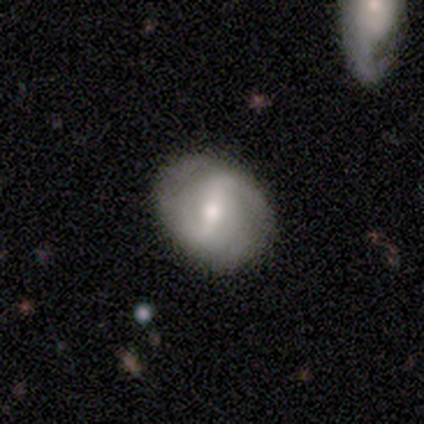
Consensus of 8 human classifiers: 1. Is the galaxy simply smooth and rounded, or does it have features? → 88% featured or disk, 12% smooth, 0% star or artifact.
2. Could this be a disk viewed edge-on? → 100% no, 0% yes.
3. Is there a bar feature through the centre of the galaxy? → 57% strong, 43% weak, 0% no.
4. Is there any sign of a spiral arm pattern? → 57% yes, 43% no.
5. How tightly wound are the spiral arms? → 75% medium, 25% loose, 0% tight.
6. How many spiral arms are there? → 100% 2, 0% 1, 0% 3, 0% 4, 0% more than 4, 0% can't tell.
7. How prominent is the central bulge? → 86% moderate, 14% small, 0% dominant, 0% large, 0% none.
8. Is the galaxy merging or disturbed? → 88% none, 12% minor disturbance, 0% major disturbance, 0% merger.